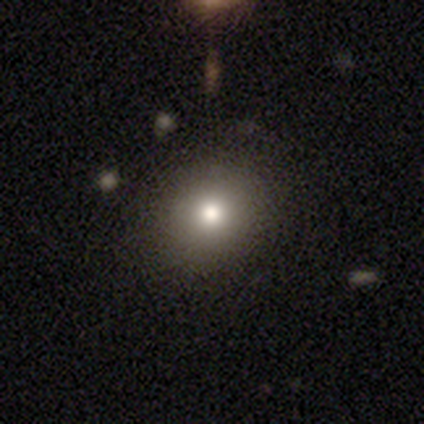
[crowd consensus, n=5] Morphology: type=smooth (100%); roundness=round (100%); merging=none (100%).